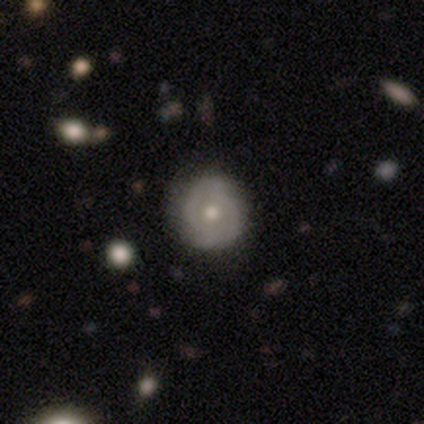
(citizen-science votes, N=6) featured or disk 50%, smooth 33%, star or artifact 17%. Down the decision tree: edge-on disk — no (100%); bar — no (67%); spiral arms — yes (100%); spiral arm count — 2 (100%); spiral winding — medium (67%); bulge size — moderate (100%); merging — none (100%).